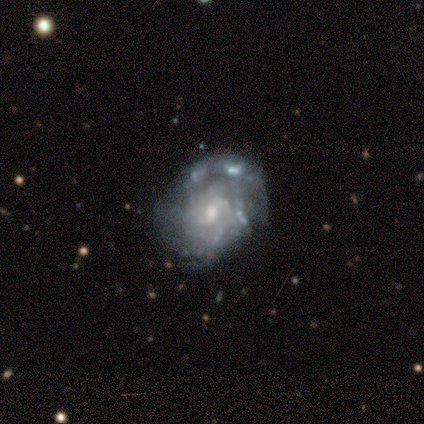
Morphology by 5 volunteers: This is clearly a featured or disk galaxy (100%). It is clearly not viewed edge-on (100%). Bar: likely no (60%). Spiral arm pattern: likely yes (60%). Spiral arm count: marginally 2 (33%, tied with more than 4 and can't tell). Spiral winding: likely tight (67%). Central bulge: marginally moderate (40%, tied with none). Merging: likely none (60%).